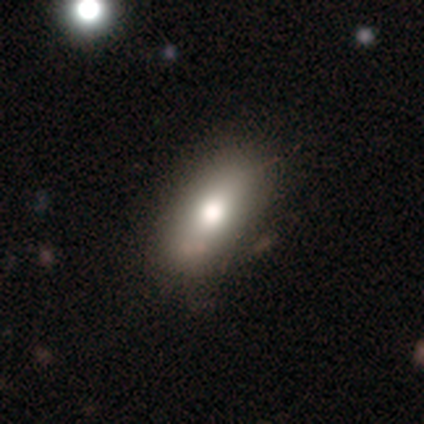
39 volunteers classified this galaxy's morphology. Overall: smooth (74%). How rounded: in between (93%). Merging: none (75%).